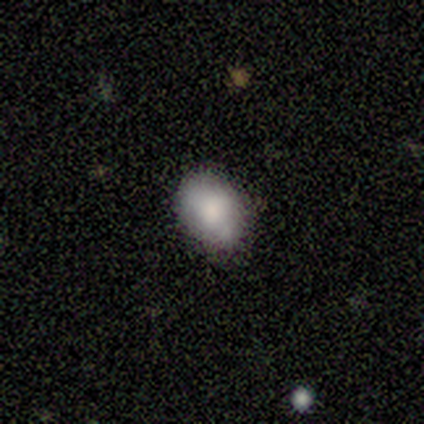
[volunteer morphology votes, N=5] This is clearly a smooth galaxy (100%). How rounded: clearly in between (100%). Merging: likely none (60%).